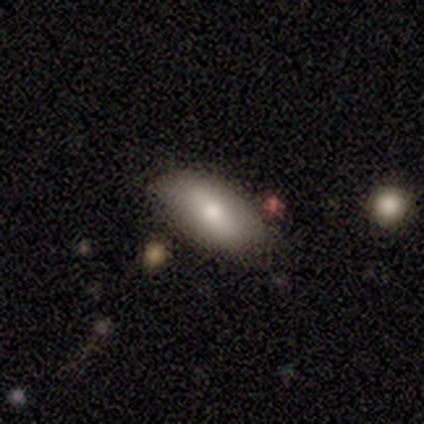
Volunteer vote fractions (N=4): A smooth galaxy with no disk features (100%) that is in between round and cigar-shaped (100%). Merging: none (50%).